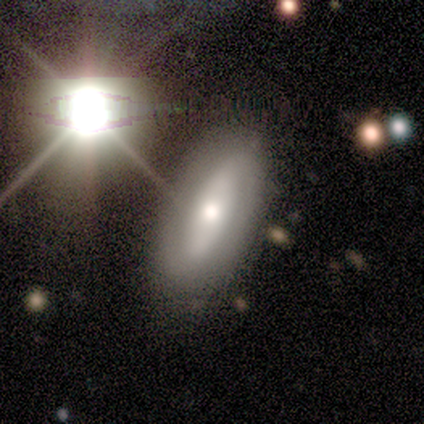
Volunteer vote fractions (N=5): Volunteers were most divided on "smooth or featured": smooth: 60%, featured or disk: 20%, star or artifact: 20%. More confident: how rounded — in between (100%); merging — none (100%).